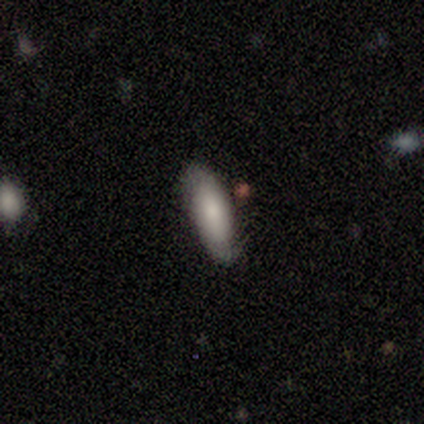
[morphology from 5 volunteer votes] A smooth galaxy with no disk features (80%) that is in between round and cigar-shaped (75%).

Vote fractions:
- Smooth or featured? smooth: 80% / featured or disk: 20% / star or artifact: 0%
- How rounded? in between: 75% / cigar-shaped: 25% / round: 0%
- Merging? none: 100% / minor disturbance: 0% / major disturbance: 0% / merger: 0%